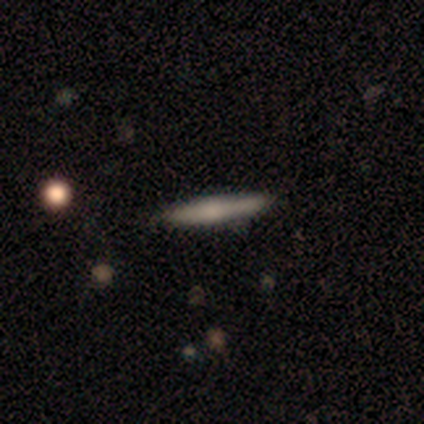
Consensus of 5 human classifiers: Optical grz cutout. It shows a smooth galaxy with no disk features (80%) that is cigar-shaped (75%). Merging: none (80%).